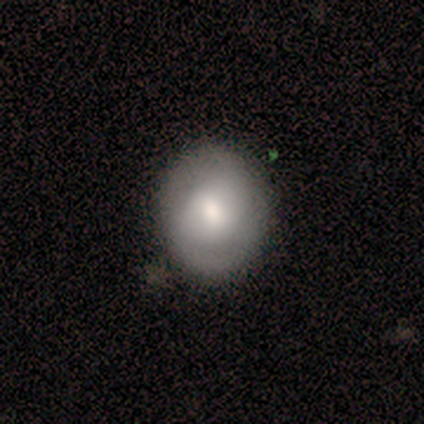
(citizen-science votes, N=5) Morphology: type=featured or disk (60%); edge-on=no (100%); bar=no (67%); spiral arms=yes (100%); winding=tight (33%, tied with medium and loose); arm count=can't tell (67%); bulge=large (33%, tied with moderate and small); merging=none (80%).